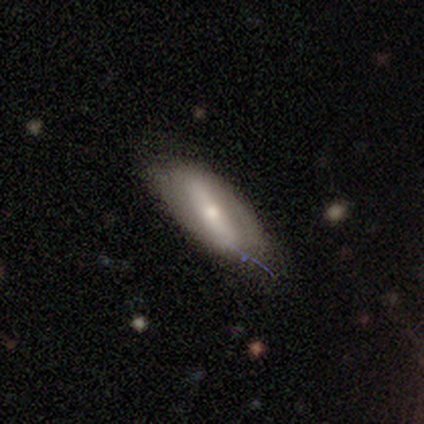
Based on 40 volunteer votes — Smooth or featured?
  - featured or disk: 52% *
  - smooth: 45%
  - star or artifact: 2%
Edge-on disk?
  - no: 90% *
  - yes: 10%
Bar?
  - strong: 95% *
  - no: 5%
  - weak: 0%
Spiral arms?
  - no: 63% *
  - yes: 37%
Bulge size?
  - moderate: 63% *
  - small: 26%
  - dominant: 5%
  - large: 5%
  - none: 0%
Merging?
  - none: 79% *
  - minor disturbance: 21%
  - major disturbance: 0%
  - merger: 0%